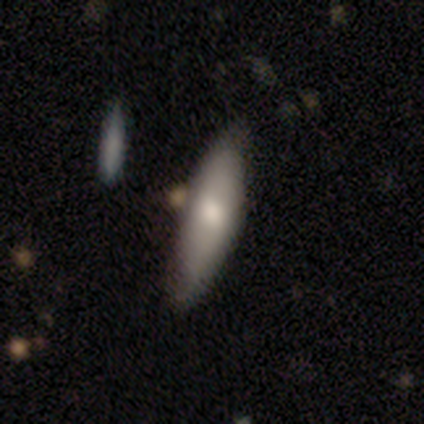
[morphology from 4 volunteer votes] type=smooth (75%); roundness=cigar-shaped (67%); merging=none (100%).